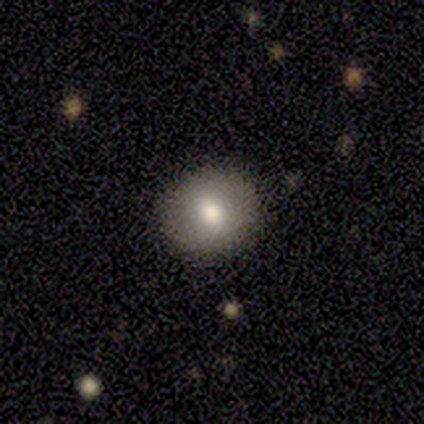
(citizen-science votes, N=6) A smooth galaxy with no disk features (100%) that is round (83%).

Vote fractions:
- Smooth or featured? smooth: 100% / featured or disk: 0% / star or artifact: 0%
- How rounded? round: 83% / in between: 17% / cigar-shaped: 0%
- Merging? none: 100% / minor disturbance: 0% / major disturbance: 0% / merger: 0%